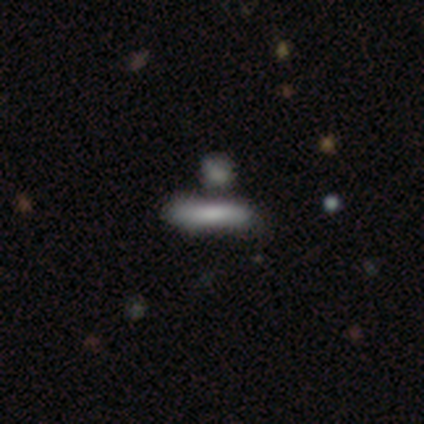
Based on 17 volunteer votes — A smooth galaxy with no disk features (88%) that is cigar-shaped (80%). Merging: none (65%).